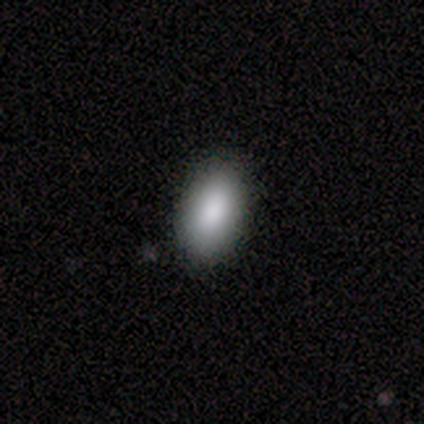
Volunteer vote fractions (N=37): Smooth or featured? 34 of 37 (92%) said smooth. How rounded? 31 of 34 (91%) said in between. Merging? 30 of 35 (86%) said none.